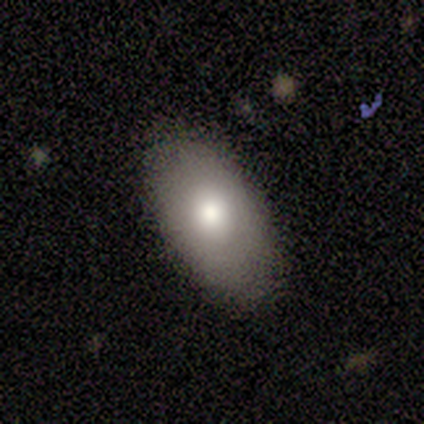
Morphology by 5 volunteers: This appears to be a featured or disk galaxy (60%) with no bar (100%), more than 4 (100%) medium (100%) spiral arms (50%, tied with no) and a large central bulge (50%, tied with moderate). Merging: none (80%).